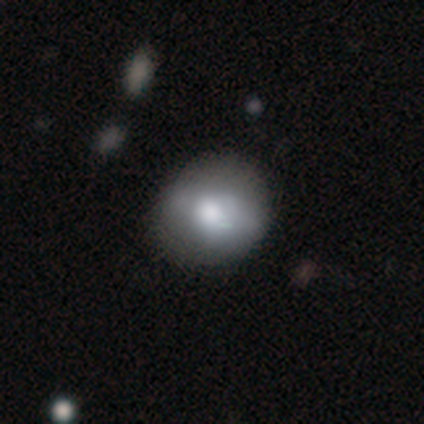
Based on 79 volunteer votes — Smooth or featured? smooth (77%)
How rounded? round (77%)
Merging? none (33%)